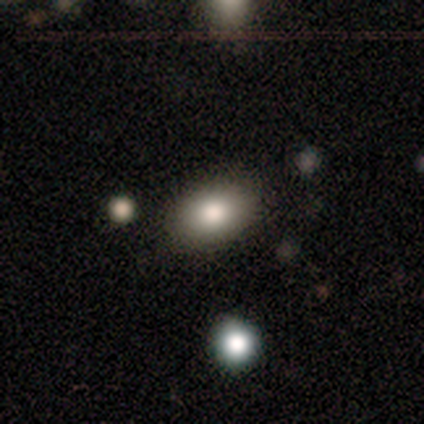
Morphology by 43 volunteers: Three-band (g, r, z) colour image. It shows a smooth galaxy with no disk features (81%) that is in between round and cigar-shaped (89%). Merging: none (88%).